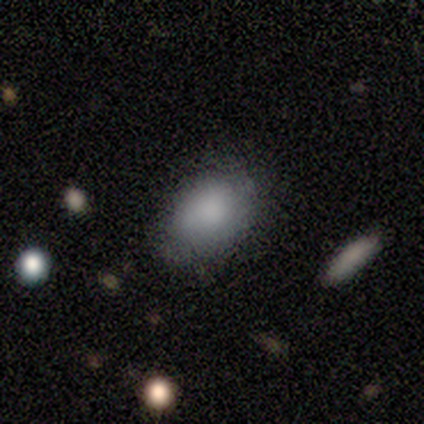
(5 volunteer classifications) Overall: smooth (80%). How rounded: in between (75%). Merging: none (50%, tied with minor disturbance).